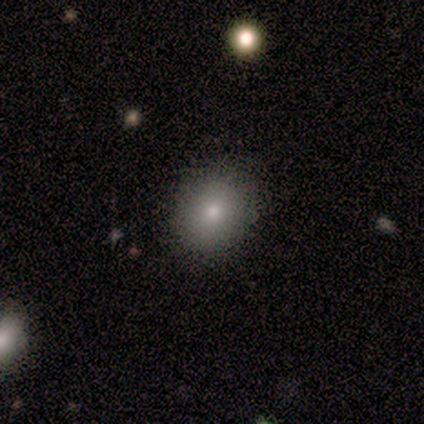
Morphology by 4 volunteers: Smooth or featured? star or artifact (50%)